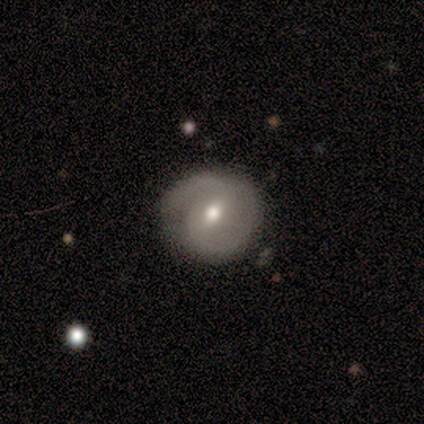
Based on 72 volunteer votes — A featured or disk galaxy (69%) with a weak bar (71%), 2 (77%) tight (49%) spiral arms (96%) and a moderate central bulge (67%).

Vote fractions:
- Smooth or featured? featured or disk: 69% / smooth: 22% / star or artifact: 8%
- Edge-on disk? no: 98% / yes: 2%
- Bar? weak: 71% / no: 16% / strong: 12%
- Spiral arms? yes: 96% / no: 4%
- Spiral winding? tight: 49% / medium: 38% / loose: 13%
- Spiral arm count? 2: 77% / can't tell: 13% / 1: 9% / 3: 2% / 4: 0% / more than 4: 0%
- Bulge size? moderate: 67% / small: 27% / large: 6% / dominant: 0% / none: 0%
- Merging? none: 65% / minor disturbance: 29% / major disturbance: 6% / merger: 0%